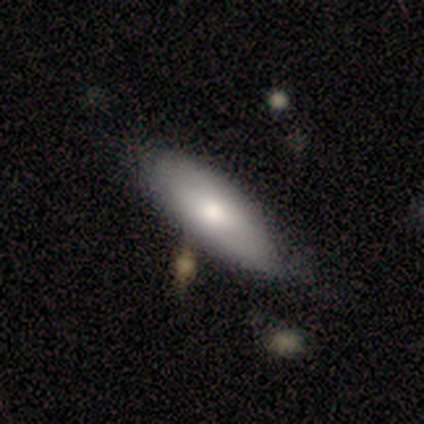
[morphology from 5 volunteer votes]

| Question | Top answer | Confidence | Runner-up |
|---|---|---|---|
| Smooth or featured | smooth | 80% | featured or disk (20%) |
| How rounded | in between | 100% | — |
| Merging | none | 80% | merger (20%) |